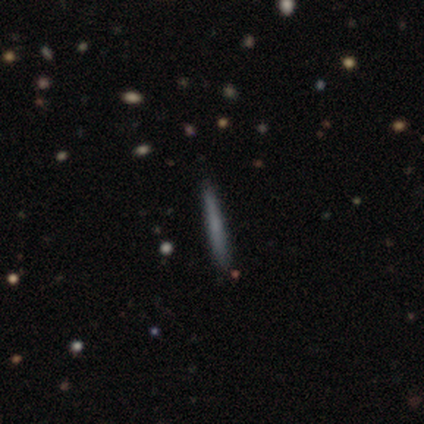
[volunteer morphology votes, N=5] A smooth galaxy with no disk features (60%) that is cigar-shaped (100%).

Vote fractions:
- Smooth or featured? smooth: 60% / featured or disk: 40% / star or artifact: 0%
- How rounded? cigar-shaped: 100% / round: 0% / in between: 0%
- Merging? none: 80% / minor disturbance: 20% / major disturbance: 0% / merger: 0%